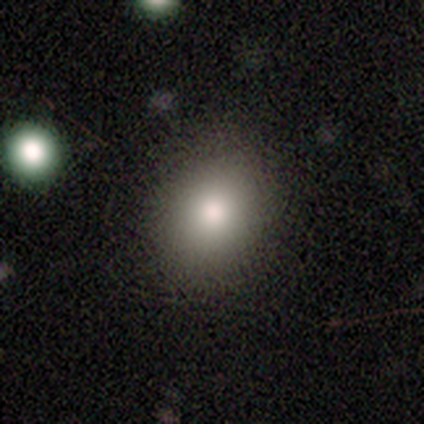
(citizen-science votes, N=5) Smooth or featured?
  - smooth: 100% *
  - featured or disk: 0%
  - star or artifact: 0%
How rounded?
  - round: 60% *
  - in between: 20%
  - cigar-shaped: 20%
Merging?
  - none: 80% *
  - major disturbance: 20%
  - minor disturbance: 0%
  - merger: 0%